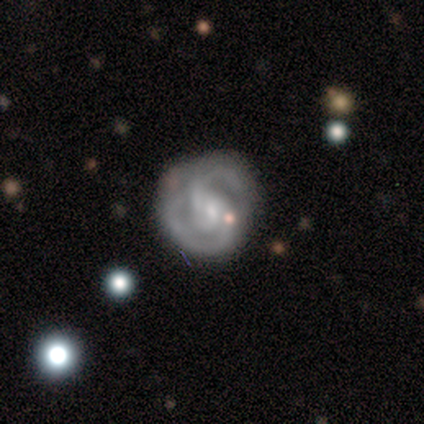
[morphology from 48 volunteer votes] smooth_or_featured: featured or disk (p=0.90) [alt: smooth p=0.08]
disk_edge_on: no (p=0.98) [alt: yes p=0.02]
bar: weak (p=0.45) [tied with: no p=0.45]
has_spiral_arms: yes (p=0.93) [alt: no p=0.07]
spiral_winding: tight (p=0.46) [alt: medium p=0.36]
spiral_arm_count: 2 (p=0.79) [alt: can't tell p=0.13]
bulge_size: small (p=0.52) [alt: moderate p=0.29]
merging: none (p=0.62) [alt: minor disturbance p=0.28]